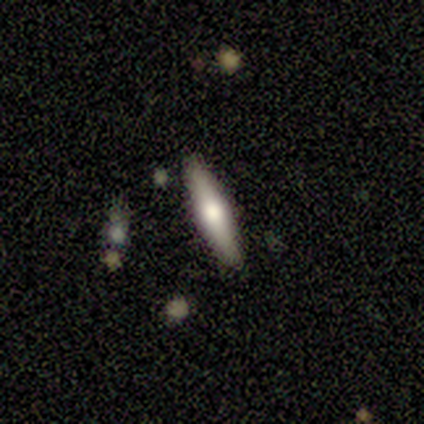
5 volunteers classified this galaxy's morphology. Q: Smooth or featured?
A: smooth (100%)
Q: How rounded?
A: cigar-shaped (80%); runner-up: in between (20%)
Q: Merging?
A: none (100%)